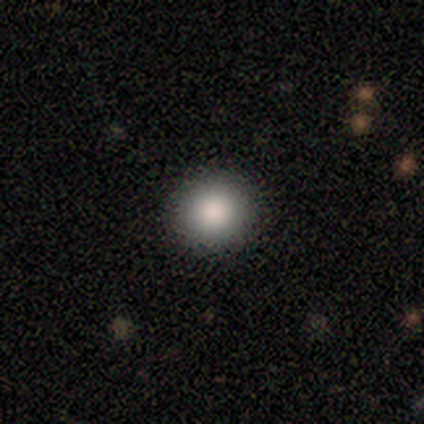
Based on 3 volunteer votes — Smooth or featured?
  - smooth: 100% *
  - featured or disk: 0%
  - star or artifact: 0%
How rounded?
  - round: 100% *
  - in between: 0%
  - cigar-shaped: 0%
Merging?
  - none: 100% *
  - minor disturbance: 0%
  - major disturbance: 0%
  - merger: 0%